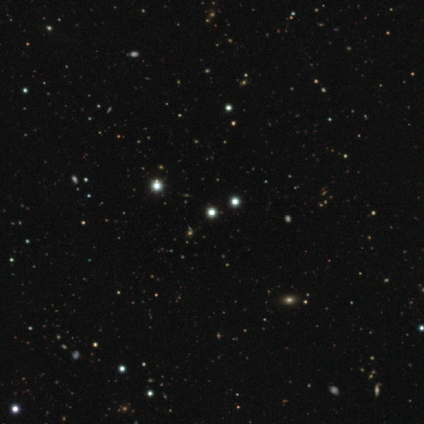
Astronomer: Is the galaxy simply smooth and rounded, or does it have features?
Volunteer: star or artifact — 80%.